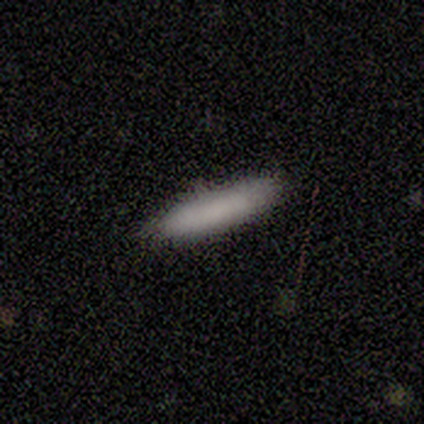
smooth-or-featured: smooth: 80% | featured or disk: 20% | star or artifact: 0%
  how-rounded: cigar-shaped: 75% | in between: 25% | round: 0%
  merging: none: 80% | minor disturbance: 20% | major disturbance: 0% | merger: 0%